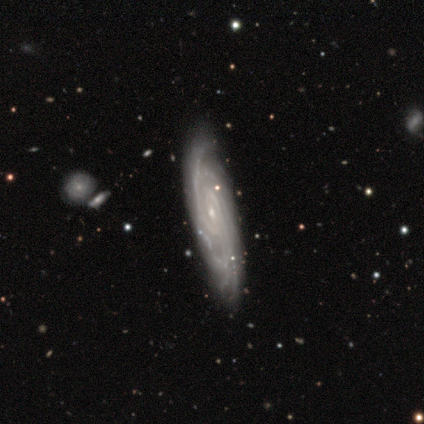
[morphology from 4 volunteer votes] A featured or disk galaxy (75%) with a weak bar (100%), 4 (50%, tied with can't tell) tight (50%, tied with medium) spiral arms (100%) and a small central bulge (100%). Merging: none (100%).